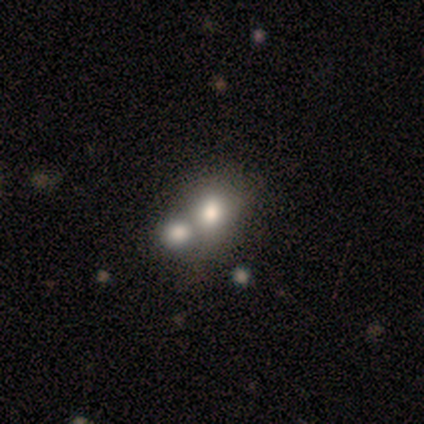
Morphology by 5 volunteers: Volunteers were most divided on "smooth or featured": smooth: 60%, featured or disk: 40%, star or artifact: 0%. More confident: how rounded — in between (67%); merging — merger (60%).